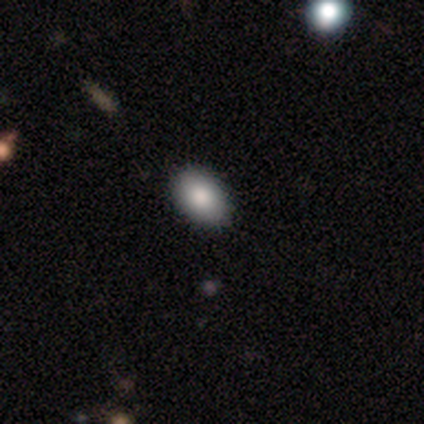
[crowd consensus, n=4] smooth_or_featured: smooth (p=0.75) [alt: featured or disk p=0.25]
how_rounded: in between (p=1.00)
merging: none (p=1.00)